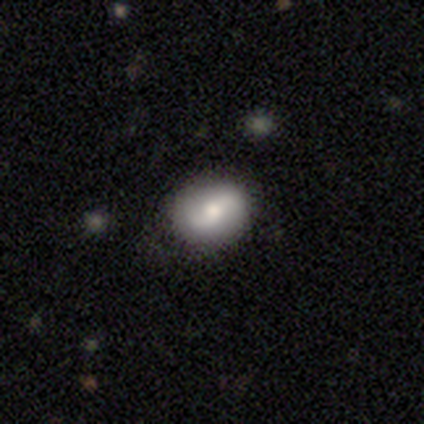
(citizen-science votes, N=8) Volunteers were most divided on "smooth or featured": smooth: 62%, featured or disk: 38%, star or artifact: 0%. More confident: how rounded — in between (100%); merging — none (75%).